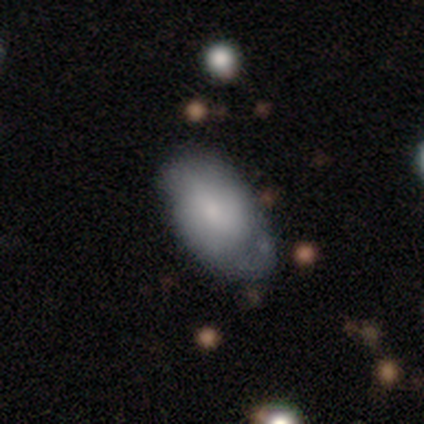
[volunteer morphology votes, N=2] This appears to be a smooth galaxy with no disk features (50%, tied with featured or disk) that is in between round and cigar-shaped (100%). Merging: none (50%, tied with major disturbance).